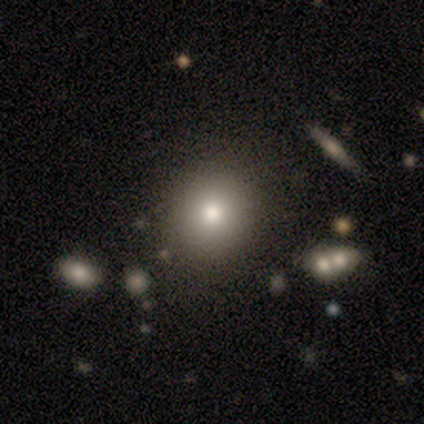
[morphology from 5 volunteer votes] Overall: smooth (60%; featured or disk 20%). How rounded: round (100%). Merging: none (75%).